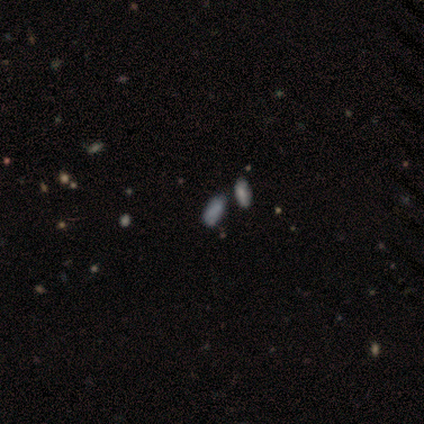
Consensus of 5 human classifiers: smooth_or_featured: smooth (p=0.80) [alt: featured or disk p=0.20]
how_rounded: in between (p=0.75) [alt: cigar-shaped p=0.25]
merging: none (p=0.40) [tied with: minor disturbance p=0.40]